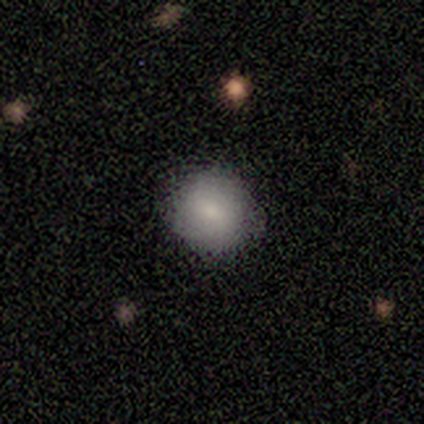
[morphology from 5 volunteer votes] type=smooth (80%); roundness=round (100%); merging=none (100%).